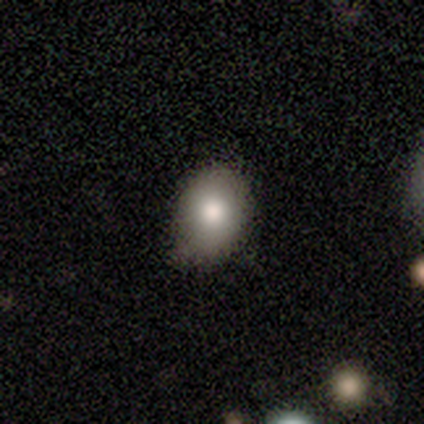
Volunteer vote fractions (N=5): Smooth or featured? 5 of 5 (100%) said smooth. How rounded? 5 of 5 (100%) said in between. Merging? 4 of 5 (80%) said minor disturbance.